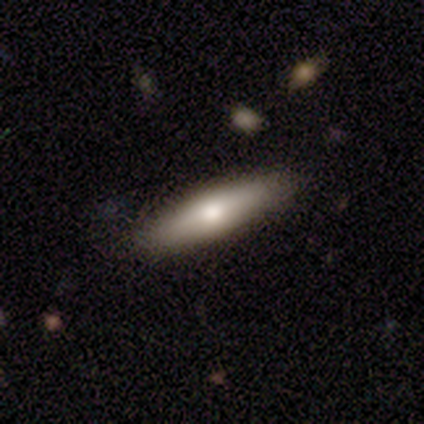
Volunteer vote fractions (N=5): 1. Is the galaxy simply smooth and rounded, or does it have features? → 80% smooth, 20% featured or disk, 0% star or artifact.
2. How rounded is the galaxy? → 50% in between (tied), 50% cigar-shaped (tied), 0% round.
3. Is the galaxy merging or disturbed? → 100% none, 0% minor disturbance, 0% major disturbance, 0% merger.